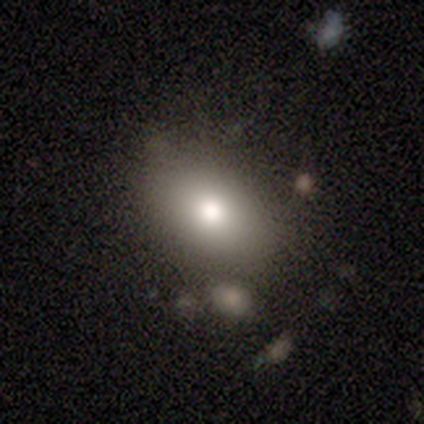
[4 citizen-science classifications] Morphology: type=smooth (75%); roundness=in between (67%); merging=none (75%).